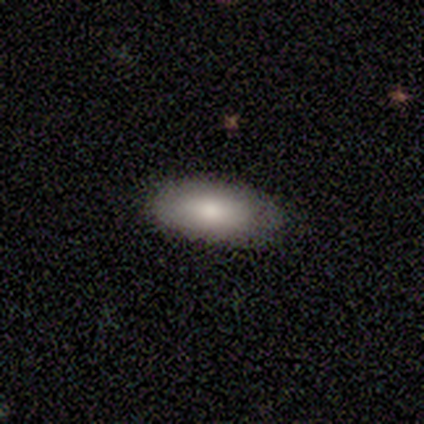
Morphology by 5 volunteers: smooth-or-featured: smooth: 60% | featured or disk: 40% | star or artifact: 0%
  how-rounded: in between: 100% | round: 0% | cigar-shaped: 0%
  merging: none: 80% | merger: 20% | minor disturbance: 0% | major disturbance: 0%